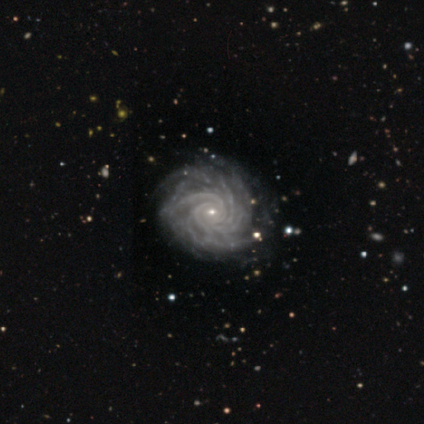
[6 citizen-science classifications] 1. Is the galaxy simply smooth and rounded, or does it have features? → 100% featured or disk, 0% smooth, 0% star or artifact.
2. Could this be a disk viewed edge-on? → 100% no, 0% yes.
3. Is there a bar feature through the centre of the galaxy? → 67% no, 33% weak, 0% strong.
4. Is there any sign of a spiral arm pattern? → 100% yes, 0% no.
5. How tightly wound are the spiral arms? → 100% tight, 0% medium, 0% loose.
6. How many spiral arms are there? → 50% more than 4, 33% 3, 17% 4, 0% 1, 0% 2, 0% can't tell.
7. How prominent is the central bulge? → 83% small, 17% moderate, 0% dominant, 0% large, 0% none.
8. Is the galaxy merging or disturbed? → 83% none, 17% minor disturbance, 0% major disturbance, 0% merger.